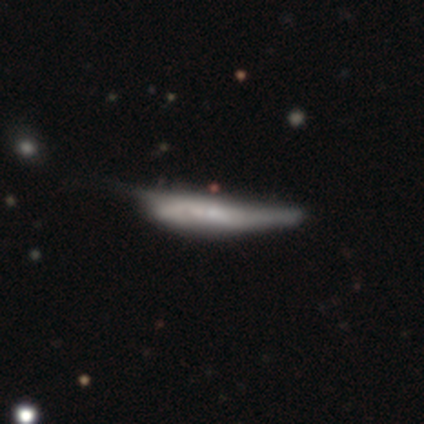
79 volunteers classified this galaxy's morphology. Smooth or featured? 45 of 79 (57%) said featured or disk. Edge-on disk? 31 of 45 (69%) said yes. Edge-on bulge? 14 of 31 (45%) said none. Merging? 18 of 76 (24%) said minor disturbance.